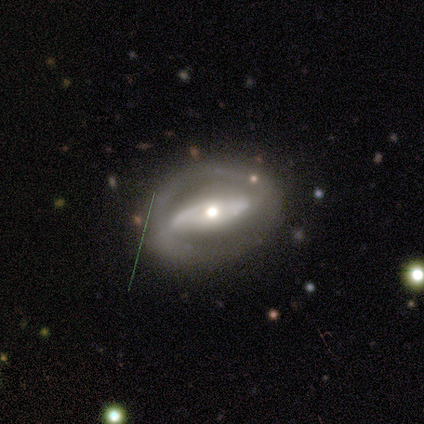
This is clearly a featured or disk galaxy (80%). It is clearly not viewed edge-on (88%). Bar: possibly no (57%). Spiral arm pattern: possibly no (57%). Central bulge: possibly moderate (57%). Merging: possibly none (56%).